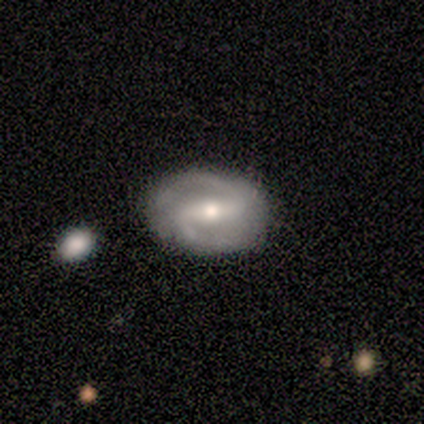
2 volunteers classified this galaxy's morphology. This appears to be a smooth galaxy with no disk features (50%, tied with featured or disk) that is in between round and cigar-shaped (100%). Merging: none (100%).